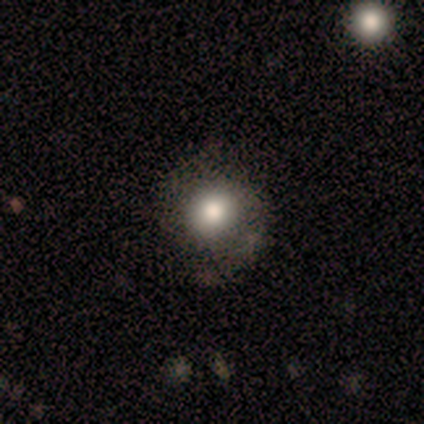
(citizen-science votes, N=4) Q: Smooth or featured?
A: smooth (100%)
Q: How rounded?
A: round (100%)
Q: Merging?
A: none (75%); runner-up: major disturbance (25%)